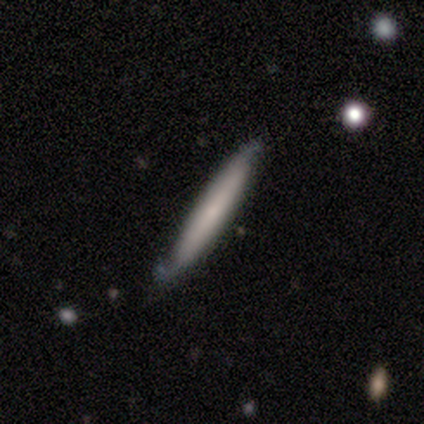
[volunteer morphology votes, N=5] smooth_or_featured: featured or disk (p=0.80) [alt: smooth p=0.20]
disk_edge_on: yes (p=1.00)
edge_on_bulge: none (p=0.50) [tied with: rounded p=0.50]
merging: none (p=0.60) [alt: major disturbance p=0.40]